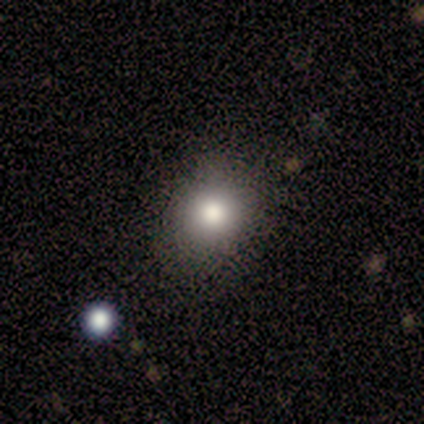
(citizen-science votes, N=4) Smooth or featured? 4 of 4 (100%) said smooth. How rounded? 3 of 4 (75%) said round. Merging? 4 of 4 (100%) said none.